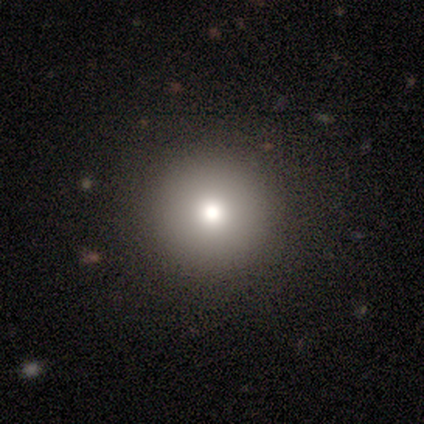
Smooth or featured?
  - smooth: 80% *
  - featured or disk: 20%
  - star or artifact: 0%
How rounded?
  - round: 100% *
  - in between: 0%
  - cigar-shaped: 0%
Merging?
  - none: 100% *
  - minor disturbance: 0%
  - major disturbance: 0%
  - merger: 0%